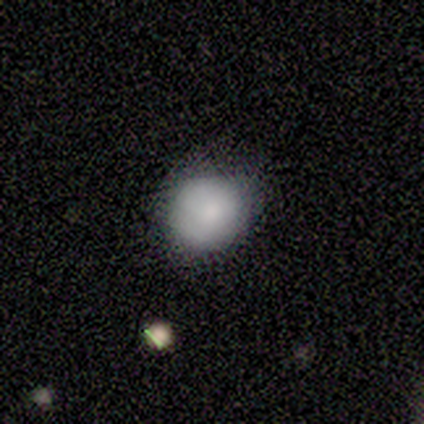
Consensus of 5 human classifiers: A smooth galaxy with no disk features (100%) that is round (80%).

Vote fractions:
- Smooth or featured? smooth: 100% / featured or disk: 0% / star or artifact: 0%
- How rounded? round: 80% / in between: 20% / cigar-shaped: 0%
- Merging? none: 60% / minor disturbance: 40% / major disturbance: 0% / merger: 0%